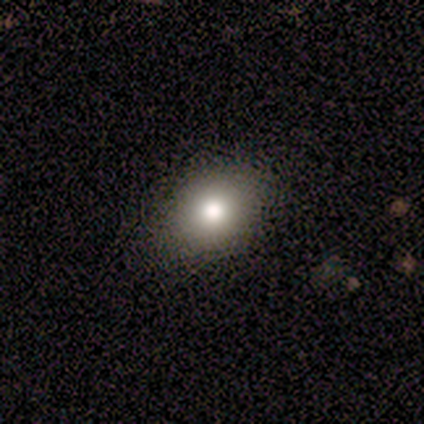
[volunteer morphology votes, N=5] Overall: smooth (100%). How rounded: round (60%; in between 40%). Merging: none (100%).